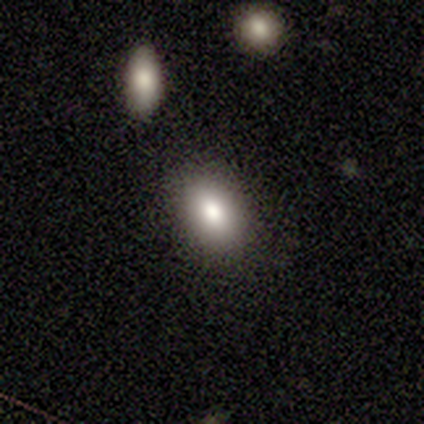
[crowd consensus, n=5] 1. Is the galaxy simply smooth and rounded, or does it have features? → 80% smooth, 20% featured or disk, 0% star or artifact.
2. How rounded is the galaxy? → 100% in between, 0% round, 0% cigar-shaped.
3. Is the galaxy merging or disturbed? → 100% none, 0% minor disturbance, 0% major disturbance, 0% merger.